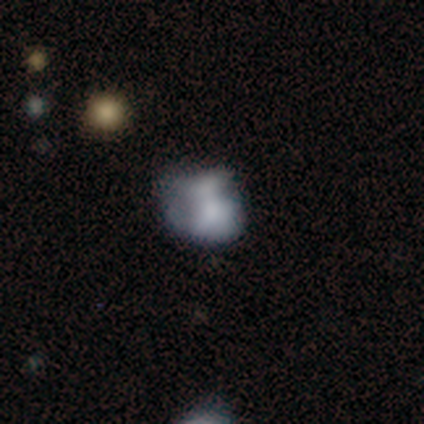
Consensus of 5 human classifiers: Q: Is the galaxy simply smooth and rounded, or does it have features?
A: smooth — 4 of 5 (80%).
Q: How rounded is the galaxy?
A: round — 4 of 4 (100%).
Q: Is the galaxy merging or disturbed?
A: minor disturbance — 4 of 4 (100%).